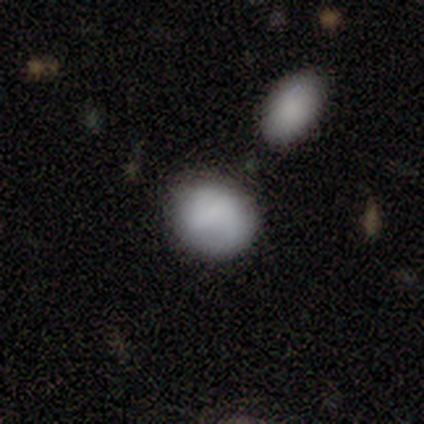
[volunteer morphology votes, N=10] Overall: smooth (90%). How rounded: in between (56%; round 44%). Merging: none (70%).